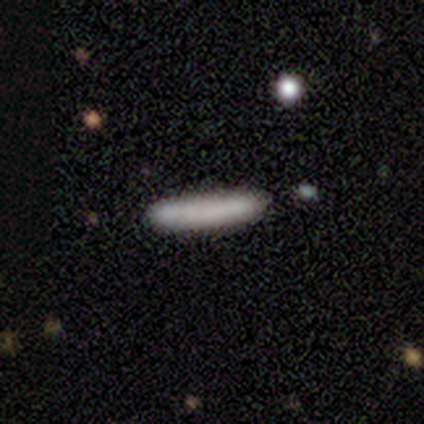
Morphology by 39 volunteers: This is likely a smooth galaxy (69%). How rounded: clearly cigar-shaped (96%). Merging: likely none (78%).